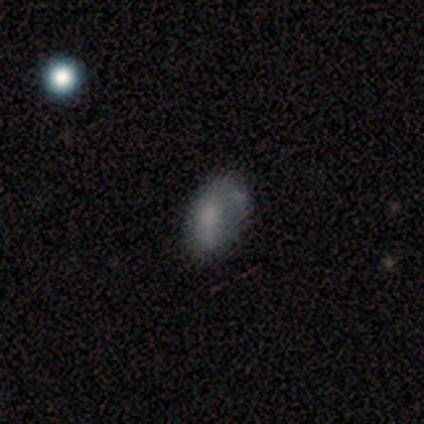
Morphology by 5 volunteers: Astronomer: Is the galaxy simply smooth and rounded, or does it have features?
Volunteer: smooth — 60%.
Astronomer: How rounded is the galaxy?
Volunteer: in between — 67%.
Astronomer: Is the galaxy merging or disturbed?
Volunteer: none — 50%.